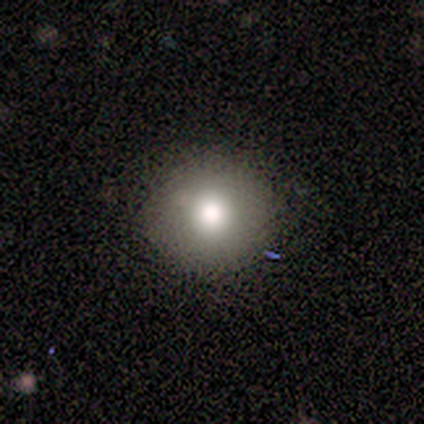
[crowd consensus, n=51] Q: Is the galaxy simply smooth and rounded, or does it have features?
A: smooth — 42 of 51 (82%).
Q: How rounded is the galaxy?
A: round — 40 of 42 (95%).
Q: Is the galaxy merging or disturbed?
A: none — 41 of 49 (84%).